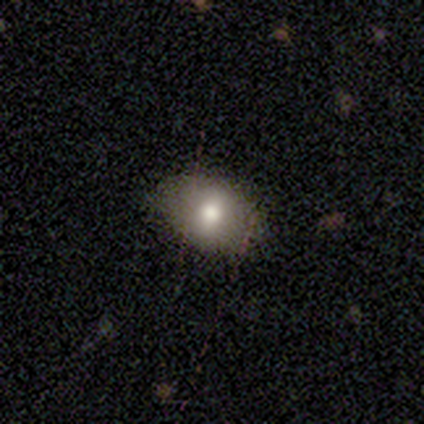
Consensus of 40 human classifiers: A smooth galaxy with no disk features (62%) that is in between round and cigar-shaped (88%).

Vote fractions:
- Smooth or featured? smooth: 62% / featured or disk: 20% / star or artifact: 18%
- How rounded? in between: 88% / round: 12% / cigar-shaped: 0%
- Merging? none: 79% / minor disturbance: 18% / major disturbance: 3% / merger: 0%